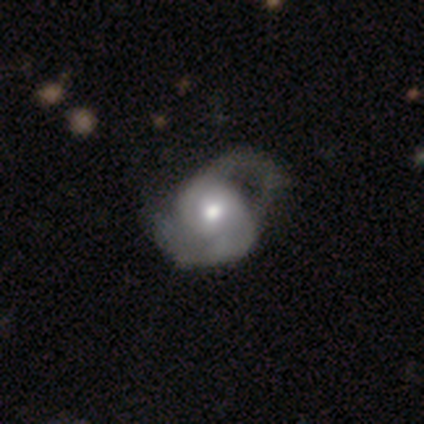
Volunteers were most divided on "merging": major disturbance: 42%, minor disturbance: 30%, none: 27%, merger: 0%. More confident: edge-on disk — no (96%); spiral arm count — 2 (84%); spiral arms — yes (83%); bulge size — moderate (74%); bar — no (70%); smooth or featured — featured or disk (69%); spiral winding — medium (58%).